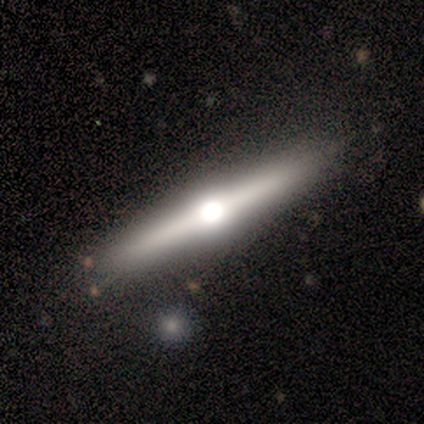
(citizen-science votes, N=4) This appears to be a featured or disk galaxy (100%) viewed edge-on (75%) with a rounded central bulge (100%). Merging: none (100%).